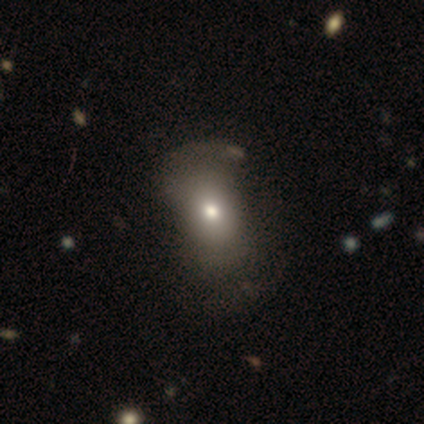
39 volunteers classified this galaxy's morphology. Smooth or featured: smooth — 59% (featured or disk — 31%)
How rounded: in between — 74% (round — 26%)
Merging: none — 34% (major disturbance — 23%)